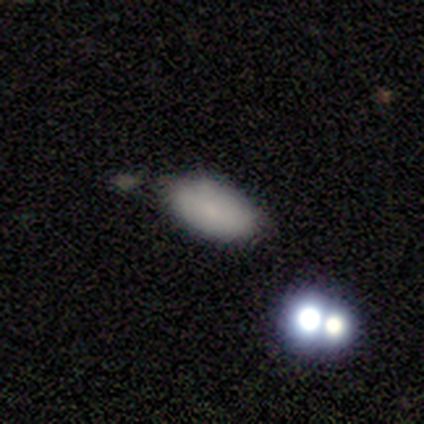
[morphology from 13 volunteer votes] This appears to be a smooth galaxy with no disk features (62%) that is in between round and cigar-shaped (100%). Merging: none (82%).